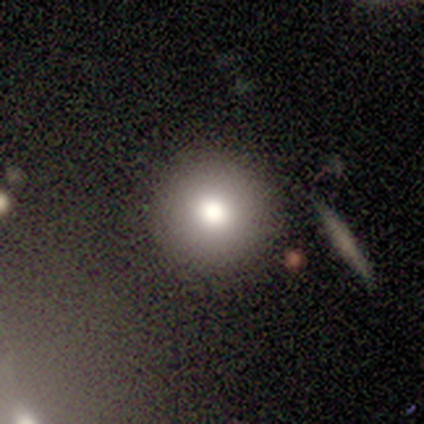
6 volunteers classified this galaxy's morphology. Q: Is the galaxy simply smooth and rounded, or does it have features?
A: smooth — 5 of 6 (83%).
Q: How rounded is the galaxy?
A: round — 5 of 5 (100%).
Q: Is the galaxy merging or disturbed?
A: none — 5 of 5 (100%).